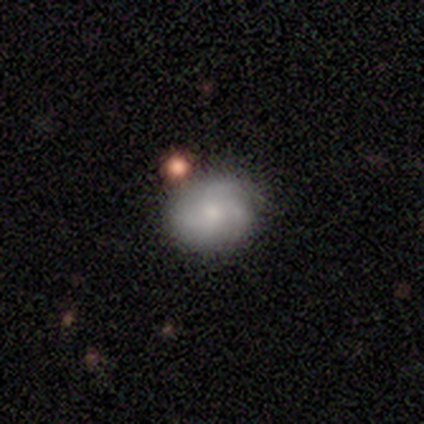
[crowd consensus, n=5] Morphology: type=smooth (40%, tied with featured or disk); roundness=round (50%, tied with cigar-shaped); merging=none (75%).